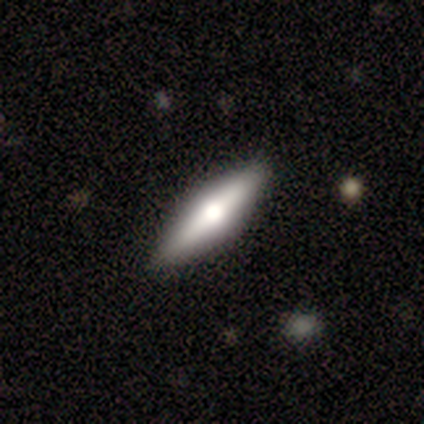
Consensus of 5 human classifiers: Overall: featured or disk (80%). Edge-on disk: yes (100%). Edge-on bulge: rounded (100%). Merging: none (100%).